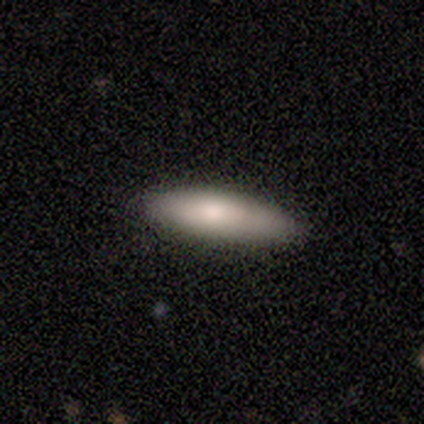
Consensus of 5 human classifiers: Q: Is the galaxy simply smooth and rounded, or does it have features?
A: smooth — 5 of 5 (100%).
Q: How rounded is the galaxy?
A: in between — 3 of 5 (60%).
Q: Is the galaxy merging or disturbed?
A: none — 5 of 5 (100%).